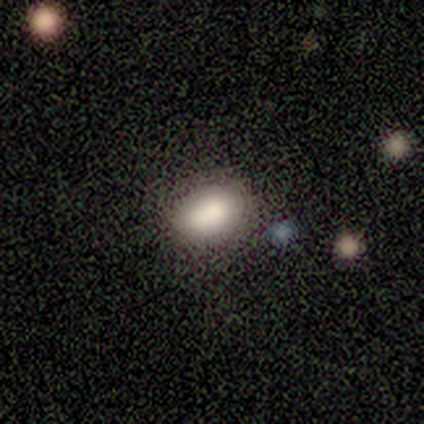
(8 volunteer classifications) Smooth or featured: smooth — 88% (featured or disk — 12%)
How rounded: in between — 100%
Merging: none — 88% (major disturbance — 12%)